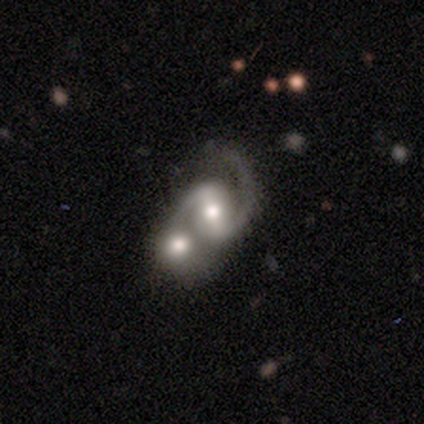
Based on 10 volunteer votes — A featured or disk galaxy (100%) with a strong bar (40%), 2 (90%) medium (60%) spiral arms (100%) and a moderate central bulge (80%).

Vote fractions:
- Smooth or featured? featured or disk: 100% / smooth: 0% / star or artifact: 0%
- Edge-on disk? no: 100% / yes: 0%
- Bar? strong: 40% / weak: 30% / no: 30%
- Spiral arms? yes: 100% / no: 0%
- Spiral winding? medium: 60% / loose: 40% / tight: 0%
- Spiral arm count? 2: 90% / 1: 10% / 3: 0% / 4: 0% / more than 4: 0% / can't tell: 0%
- Bulge size? moderate: 80% / small: 20% / dominant: 0% / large: 0% / none: 0%
- Merging? merger: 80% / none: 10% / minor disturbance: 10% / major disturbance: 0%